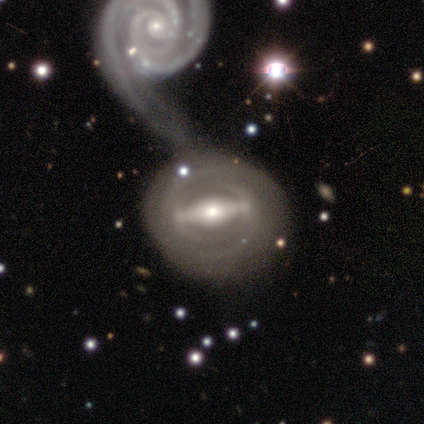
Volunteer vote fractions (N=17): smooth-or-featured: featured or disk: 88% | smooth: 12% | star or artifact: 0%
  disk-edge-on: no: 100% | yes: 0%
    bar: strong: 87% | no: 13% | weak: 0%
    has-spiral-arms: yes: 60% | no: 40%
      spiral-winding: tight: 56% | medium: 33% | loose: 11%
      spiral-arm-count: can't tell: 44% | 2: 33% | 1: 11% | 3: 11% | 4: 0% | more than 4: 0%
    bulge-size: moderate: 60% | small: 20% | dominant: 13% | none: 7% | large: 0%
  merging: merger: 47% | major disturbance: 12% | none: 6% | minor disturbance: 6%